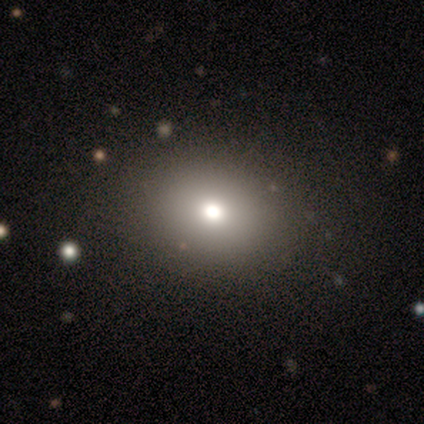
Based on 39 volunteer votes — This appears to be a smooth galaxy with no disk features (82%) that is in between round and cigar-shaped (62%). Merging: none (85%).